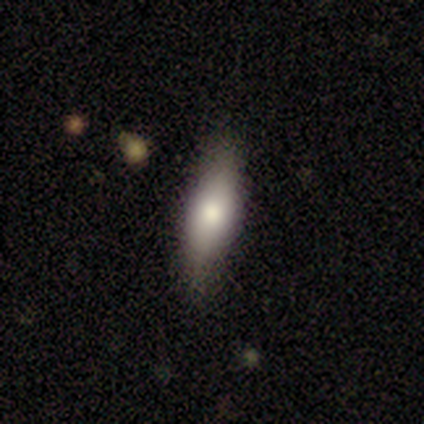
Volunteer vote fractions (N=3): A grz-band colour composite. It shows a smooth galaxy with no disk features (67%) that is cigar-shaped (100%). Merging: none (100%).